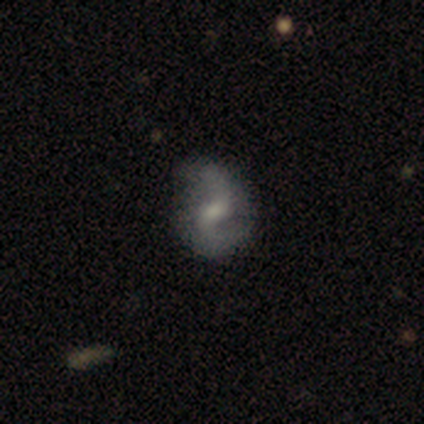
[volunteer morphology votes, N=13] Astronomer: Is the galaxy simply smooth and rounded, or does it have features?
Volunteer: featured or disk — 85%.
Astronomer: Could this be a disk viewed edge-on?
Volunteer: no — 100%.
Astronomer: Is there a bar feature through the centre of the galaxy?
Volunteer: weak — 45% (runner-up: strong, 27%).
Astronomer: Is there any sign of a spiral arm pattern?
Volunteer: yes — 91%.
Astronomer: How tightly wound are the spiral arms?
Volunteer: loose — 60%.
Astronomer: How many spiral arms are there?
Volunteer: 2 — 80%.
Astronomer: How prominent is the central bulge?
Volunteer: moderate — 55% (runner-up: small, 36%).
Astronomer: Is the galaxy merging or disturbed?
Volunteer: none — 58%.